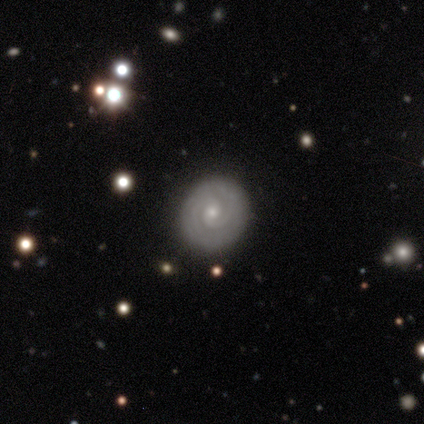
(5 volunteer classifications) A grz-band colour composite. It shows a featured or disk galaxy (100%) with no bar (60%), 2 (40%, tied with can't tell) tight (80%) spiral arms (100%) and a small central bulge (60%). Merging: none (80%).